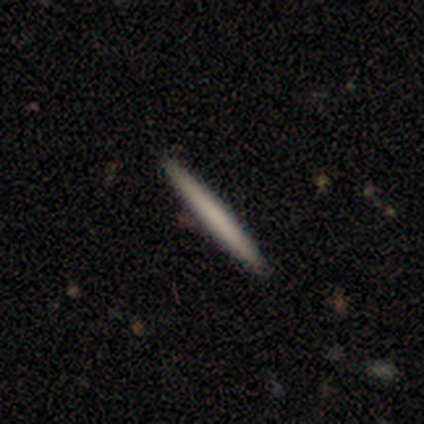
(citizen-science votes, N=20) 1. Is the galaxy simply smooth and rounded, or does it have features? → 70% smooth, 30% featured or disk, 0% star or artifact.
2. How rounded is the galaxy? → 100% cigar-shaped, 0% round, 0% in between.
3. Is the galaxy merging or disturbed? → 95% none, 5% minor disturbance, 0% major disturbance, 0% merger.